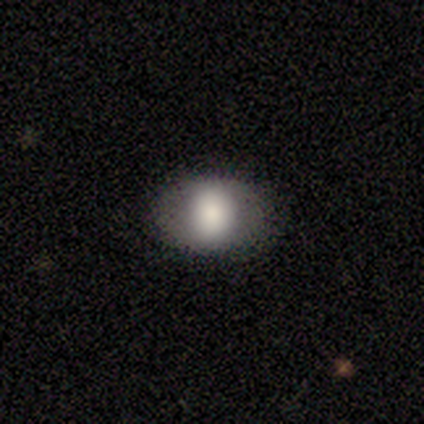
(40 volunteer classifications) Smooth or featured?
  - smooth: 75% *
  - featured or disk: 20%
  - star or artifact: 5%
How rounded?
  - in between: 67% *
  - round: 30%
  - cigar-shaped: 3%
Merging?
  - none: 89% *
  - minor disturbance: 8%
  - merger: 3%
  - major disturbance: 0%